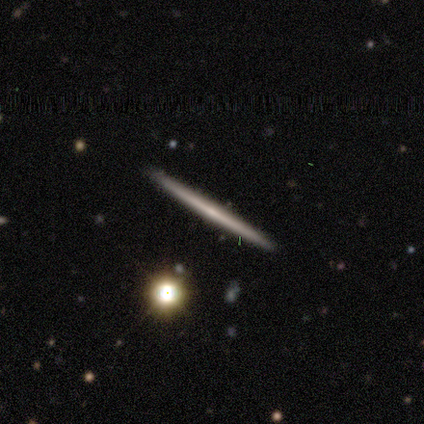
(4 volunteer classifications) Smooth or featured? 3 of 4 (75%) said featured or disk. Edge-on disk? 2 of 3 (67%) said yes. Edge-on bulge? 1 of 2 (50%, tied with rounded) said none. Merging? 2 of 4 (50%) said none.